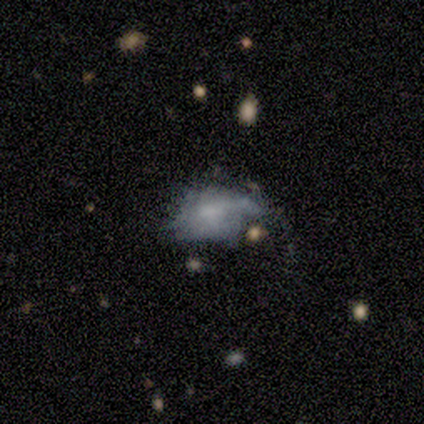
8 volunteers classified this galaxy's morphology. Smooth or featured? featured or disk (50%)
Edge-on disk? no (75%)
Bar? no (100%)
Spiral arms? no (67%)
Bulge size? small (67%)
Merging? none (43%, tied with minor disturbance)